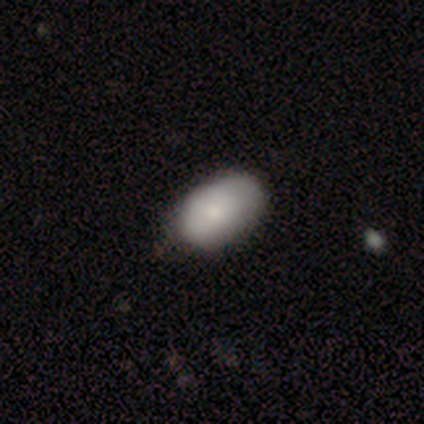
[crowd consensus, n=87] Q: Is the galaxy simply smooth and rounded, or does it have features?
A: smooth — 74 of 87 (85%).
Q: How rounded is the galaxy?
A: in between — 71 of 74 (96%).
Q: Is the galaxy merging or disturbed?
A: none — 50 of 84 (60%).